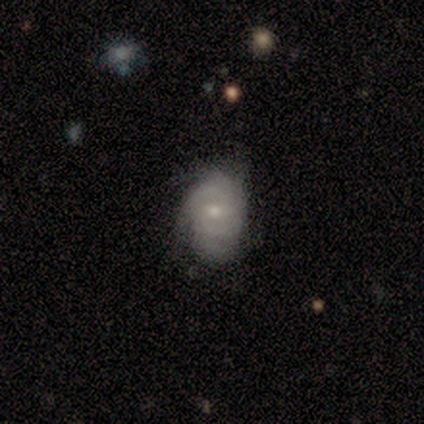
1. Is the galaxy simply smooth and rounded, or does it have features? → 80% featured or disk, 20% star or artifact, 0% smooth.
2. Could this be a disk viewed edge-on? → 100% no, 0% yes.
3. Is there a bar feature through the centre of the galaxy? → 75% no, 25% weak, 0% strong.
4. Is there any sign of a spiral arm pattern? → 50% yes (tied), 50% no (tied).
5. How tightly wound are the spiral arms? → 50% medium (tied), 50% loose (tied), 0% tight.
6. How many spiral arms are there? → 100% can't tell, 0% 1, 0% 2, 0% 3, 0% 4, 0% more than 4.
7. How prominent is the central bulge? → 50% small, 25% moderate, 25% none, 0% dominant, 0% large.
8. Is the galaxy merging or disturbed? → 100% none, 0% minor disturbance, 0% major disturbance, 0% merger.